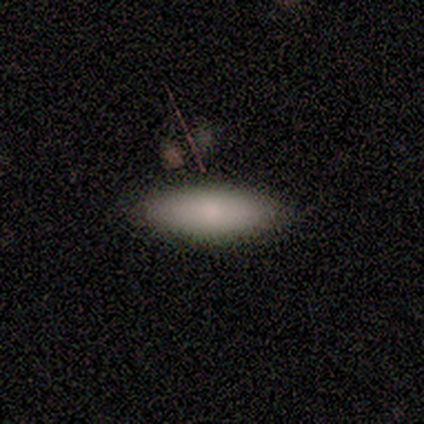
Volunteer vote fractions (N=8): Overall: smooth (100%). How rounded: in between (88%). Merging: none (100%).